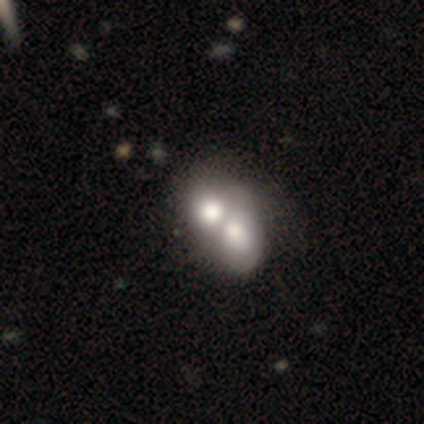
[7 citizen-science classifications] Smooth or featured? 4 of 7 (57%) said smooth. How rounded? 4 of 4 (100%) said in between. Merging? 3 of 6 (50%) said merger.